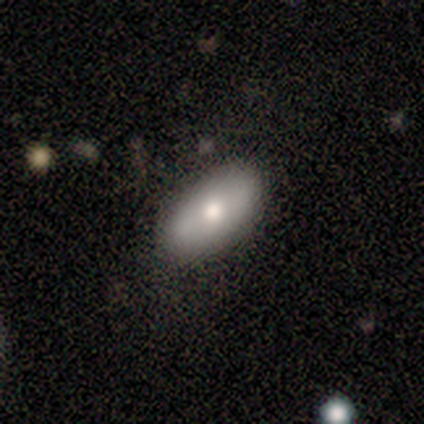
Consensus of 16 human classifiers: Volunteers were most divided on "smooth or featured": smooth: 62%, featured or disk: 25%, star or artifact: 12%. More confident: how rounded — in between (100%); merging — none (93%).